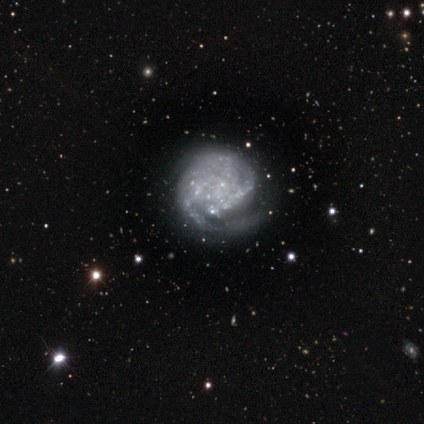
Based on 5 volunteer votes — A featured or disk galaxy (100%) with no bar (60%), 2 (67%) tight (100%) spiral arms (60%) and no central bulge (80%). Merging: none (60%).